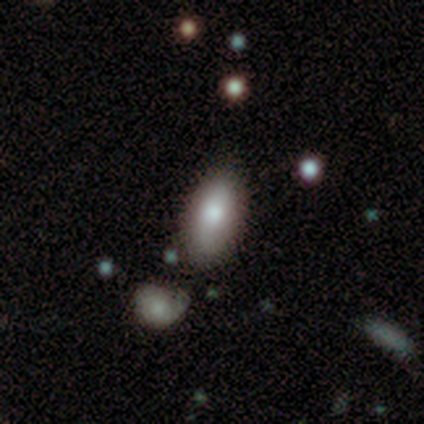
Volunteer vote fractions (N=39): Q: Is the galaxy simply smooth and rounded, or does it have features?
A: smooth — 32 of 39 (82%).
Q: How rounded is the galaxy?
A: in between — 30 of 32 (94%).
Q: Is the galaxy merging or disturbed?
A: none — 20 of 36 (56%).